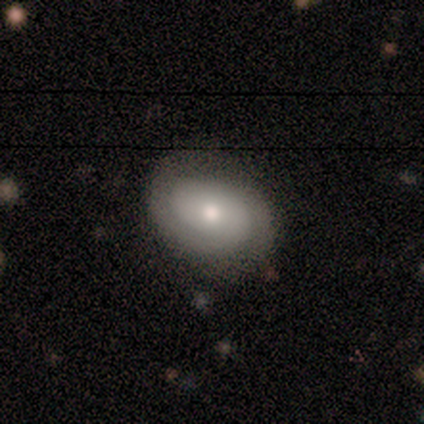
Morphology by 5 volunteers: Smooth or featured? smooth (40%, tied with featured or disk)
How rounded? in between (100%)
Merging? none (100%)